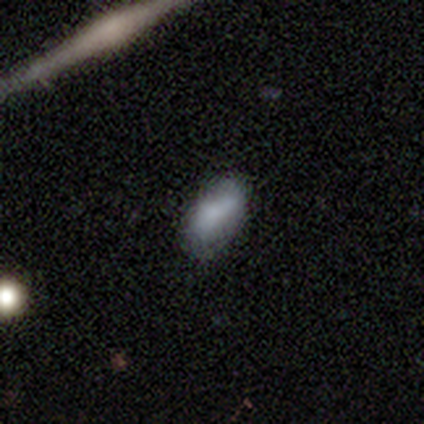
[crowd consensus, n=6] smooth-or-featured: smooth: 67% | featured or disk: 33% | star or artifact: 0%
  how-rounded: in between: 75% | cigar-shaped: 25% | round: 0%
  merging: minor disturbance: 83% | none: 17% | major disturbance: 0% | merger: 0%